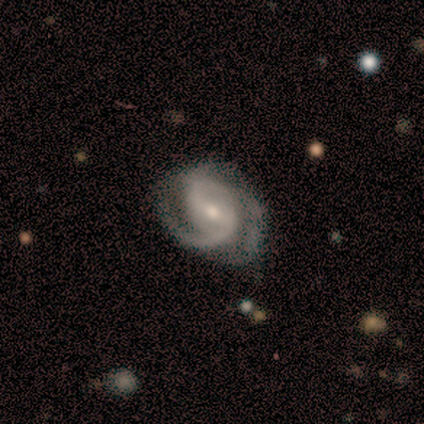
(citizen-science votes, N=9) This is clearly a featured or disk galaxy (100%). It is clearly not viewed edge-on (100%). Bar: marginally strong (44%). Spiral arm pattern: clearly yes (100%). Spiral arm count: likely 2 (67%). Spiral winding: possibly medium (56%). Central bulge: possibly moderate (56%). Merging: possibly none (56%).